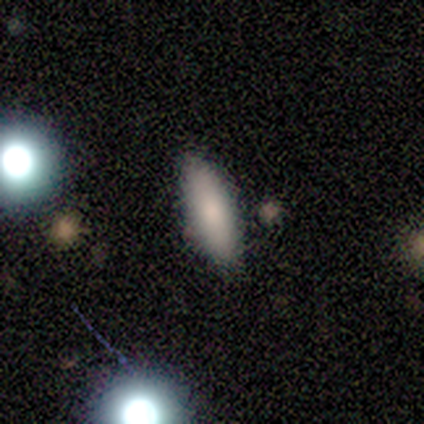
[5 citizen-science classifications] A smooth galaxy with no disk features (100%) that is in between round and cigar-shaped (80%). Merging: none (100%).